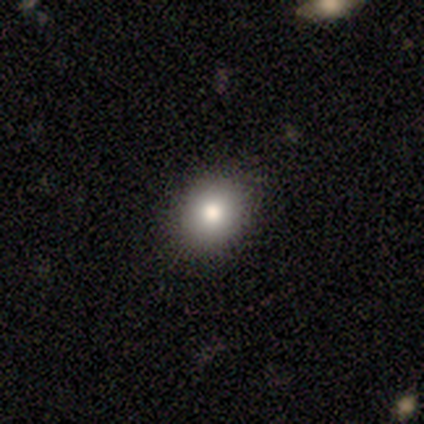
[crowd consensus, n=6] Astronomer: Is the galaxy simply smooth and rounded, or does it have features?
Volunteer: smooth — 83%.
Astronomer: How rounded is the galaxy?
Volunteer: round — 80%.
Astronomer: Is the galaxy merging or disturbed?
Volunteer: none — 100%.